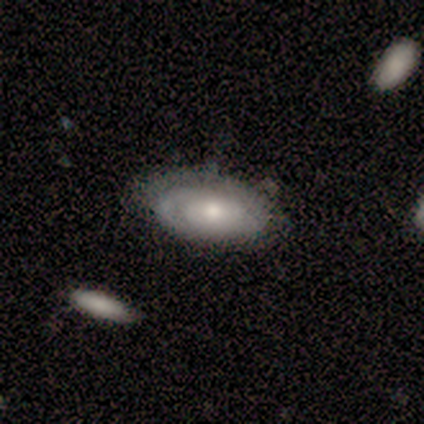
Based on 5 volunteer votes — Smooth or featured? 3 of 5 (60%) said featured or disk. Edge-on disk? 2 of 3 (67%) said no. Bar? 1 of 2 (50%, tied with no) said weak. Spiral arms? 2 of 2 (100%) said yes. Spiral winding? 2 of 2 (100%) said tight. Spiral arm count? 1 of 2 (50%, tied with can't tell) said 2. Bulge size? 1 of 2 (50%, tied with moderate) said large. Merging? 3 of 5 (60%) said minor disturbance.